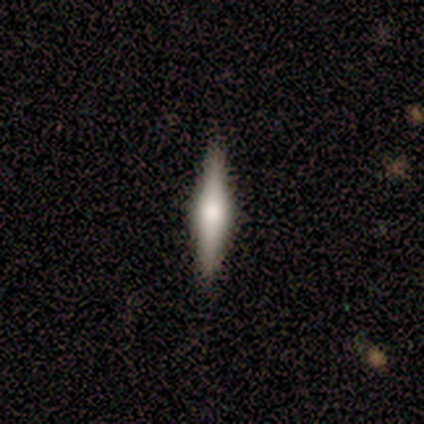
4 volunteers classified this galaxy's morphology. A featured or disk galaxy (100%) viewed edge-on (100%) with a rounded central bulge (75%). Merging: none (100%).